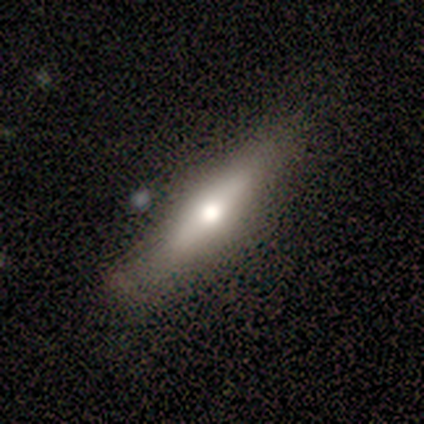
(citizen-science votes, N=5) Q: Smooth or featured?
A: featured or disk (60%); runner-up: smooth (40%)
Q: Edge-on disk?
A: yes (100%)
Q: Edge-on bulge?
A: rounded (67%); runner-up: none (33%)
Q: Merging?
A: none (80%); runner-up: minor disturbance (20%)